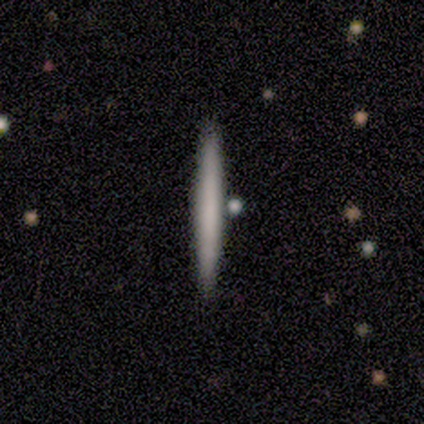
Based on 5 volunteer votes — Smooth or featured? smooth (60%)
How rounded? cigar-shaped (100%)
Merging? none (80%)